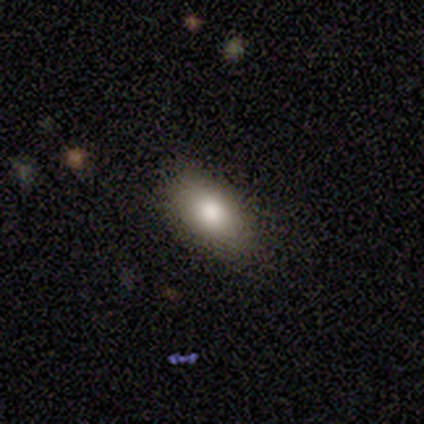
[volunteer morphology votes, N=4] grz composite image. It shows a smooth galaxy with no disk features (100%) that is in between round and cigar-shaped (100%). Merging: none (75%).